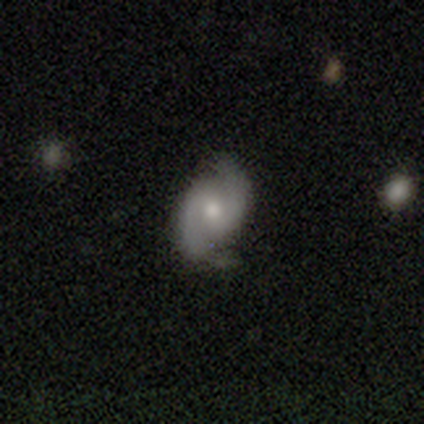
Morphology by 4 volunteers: type=featured or disk (50%); edge-on=no (100%); bar=weak (50%, tied with no); spiral arms=yes (100%); winding=medium (50%, tied with loose); arm count=2 (100%); bulge=moderate (100%); merging=none (67%).